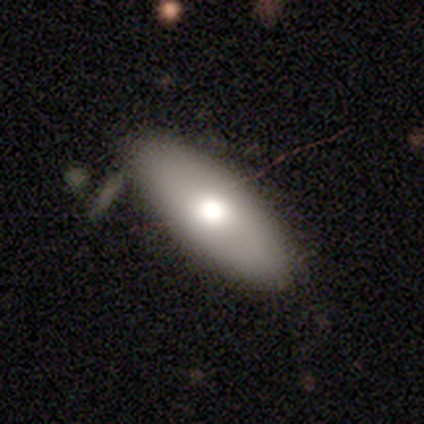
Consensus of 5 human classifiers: Smooth or featured: smooth — 60% (featured or disk — 40%)
How rounded: in between — 100%
Merging: none — 80% (minor disturbance — 20%)